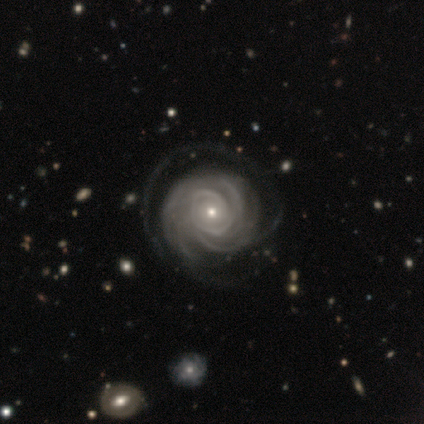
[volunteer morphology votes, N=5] Smooth or featured: featured or disk — 100%
Edge-on disk: no — 100%
Bar: no — 60% (weak — 40%)
Spiral arms: yes — 100%
Spiral winding: tight — 80% (loose — 20%)
Spiral arm count: 4 — 40% (tied with can't tell — 40%)
Bulge size: small — 60% (large — 20%)
Merging: minor disturbance — 40% (tied with major disturbance — 40%)